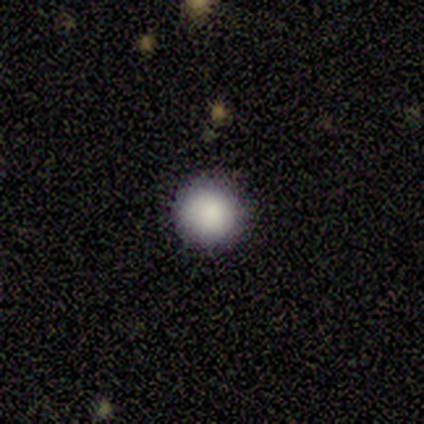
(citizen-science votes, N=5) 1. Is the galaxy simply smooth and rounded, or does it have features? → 80% smooth, 20% star or artifact, 0% featured or disk.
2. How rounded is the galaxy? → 100% round, 0% in between, 0% cigar-shaped.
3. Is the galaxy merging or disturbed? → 100% none, 0% minor disturbance, 0% major disturbance, 0% merger.